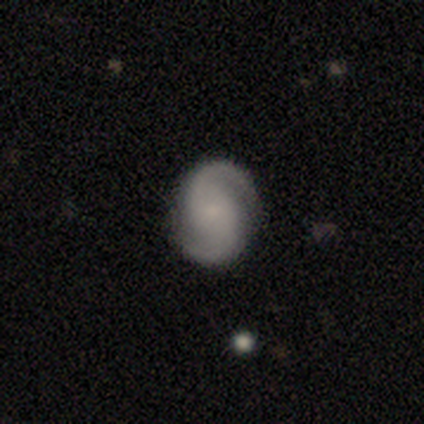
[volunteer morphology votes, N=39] Q: Smooth or featured?
A: featured or disk (85%); runner-up: smooth (10%)
Q: Edge-on disk?
A: no (97%); runner-up: yes (3%)
Q: Bar?
A: no (62%); runner-up: weak (31%)
Q: Spiral arms?
A: yes (100%)
Q: Spiral winding?
A: medium (50%); runner-up: tight (25%)
Q: Spiral arm count?
A: 2 (100%)
Q: Bulge size?
A: small (56%); runner-up: none (34%)
Q: Merging?
A: none (86%); runner-up: minor disturbance (11%)